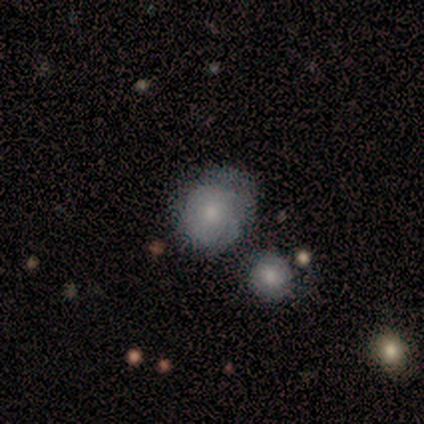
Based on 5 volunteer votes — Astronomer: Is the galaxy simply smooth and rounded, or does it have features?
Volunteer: smooth — 60% (runner-up: featured or disk, 40%).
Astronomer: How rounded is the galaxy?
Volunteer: round — 67%.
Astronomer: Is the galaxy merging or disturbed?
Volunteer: none — 100%.